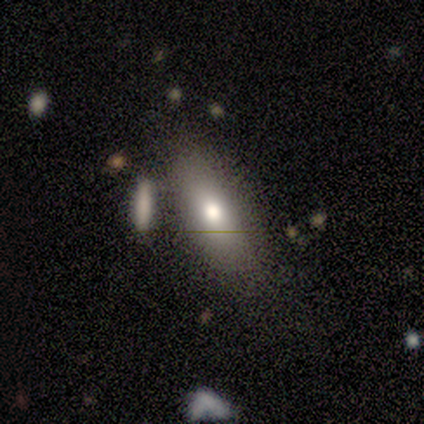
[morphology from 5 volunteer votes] type=smooth (60%); roundness=in between (67%); merging=none (80%).